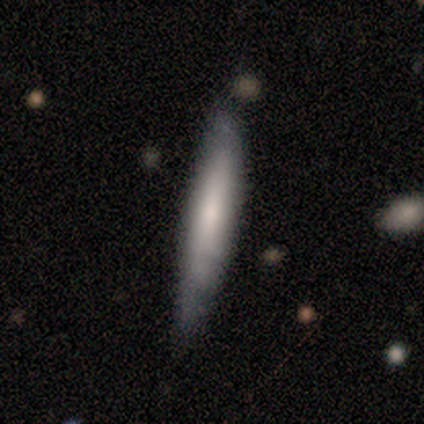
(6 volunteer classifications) Smooth or featured? 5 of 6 (83%) said smooth. How rounded? 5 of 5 (100%) said cigar-shaped. Merging? 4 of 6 (67%) said none.